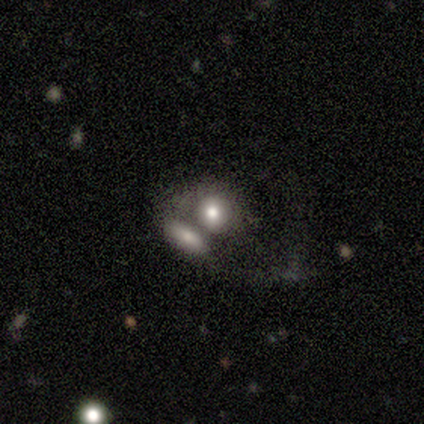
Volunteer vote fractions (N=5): A smooth galaxy with no disk features (100%) that is round (60%).

Vote fractions:
- Smooth or featured? smooth: 100% / featured or disk: 0% / star or artifact: 0%
- How rounded? round: 60% / in between: 40% / cigar-shaped: 0%
- Merging? merger: 80% / none: 20% / minor disturbance: 0% / major disturbance: 0%